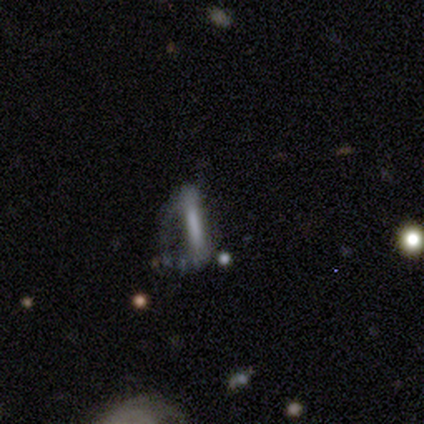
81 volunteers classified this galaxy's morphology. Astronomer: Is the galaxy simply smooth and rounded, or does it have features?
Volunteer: featured or disk — 54% (runner-up: smooth, 42%).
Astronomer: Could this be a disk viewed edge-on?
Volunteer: no — 59% (runner-up: yes, 41%).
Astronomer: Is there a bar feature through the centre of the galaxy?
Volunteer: strong — 69%.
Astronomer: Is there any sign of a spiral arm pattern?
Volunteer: no — 65%.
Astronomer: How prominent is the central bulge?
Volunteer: none — 73%.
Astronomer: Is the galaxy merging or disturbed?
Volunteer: major disturbance — 58%.